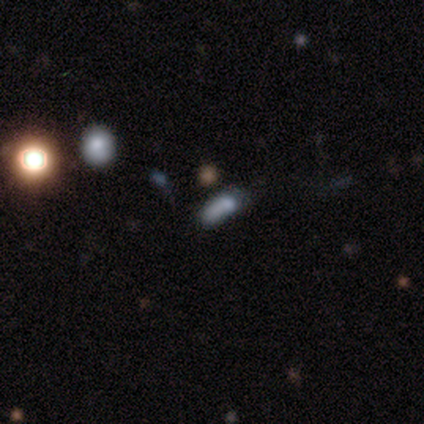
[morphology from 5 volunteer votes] Smooth or featured? 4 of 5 (80%) said smooth. How rounded? 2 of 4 (50%, tied with cigar-shaped) said in between. Merging? 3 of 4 (75%) said none.